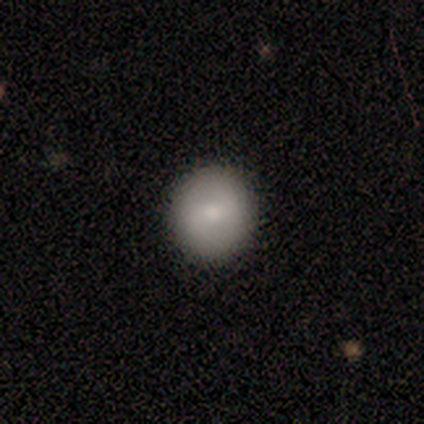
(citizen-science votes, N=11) Q: Smooth or featured?
A: smooth (73%); runner-up: featured or disk (18%)
Q: How rounded?
A: round (50%); runner-up: in between (38%)
Q: Merging?
A: none (90%); runner-up: minor disturbance (10%)